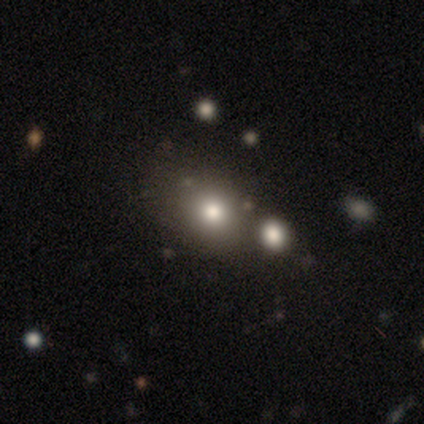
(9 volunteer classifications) Smooth or featured: smooth — 100%
How rounded: round — 56% (in between — 44%)
Merging: none — 44% (minor disturbance — 22%)